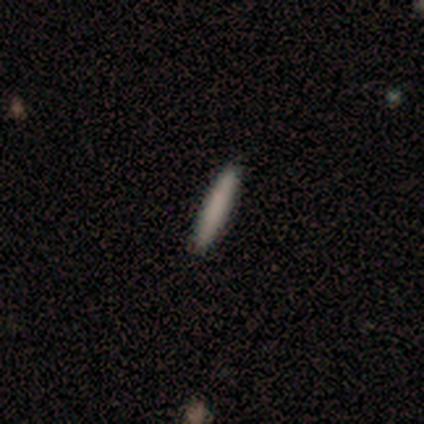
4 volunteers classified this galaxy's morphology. smooth_or_featured: smooth (p=0.50) [tied with: featured or disk p=0.50]
how_rounded: cigar-shaped (p=1.00)
merging: none (p=1.00)